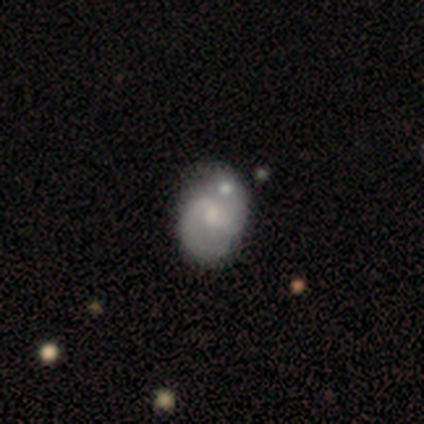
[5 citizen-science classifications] Smooth or featured?
  - featured or disk: 60% *
  - smooth: 40%
  - star or artifact: 0%
Edge-on disk?
  - no: 100% *
  - yes: 0%
Bar?
  - weak: 67% *
  - no: 33%
  - strong: 0%
Spiral arms?
  - yes: 100% *
  - no: 0%
Spiral winding?
  - tight: 33% * (tied)
  - medium: 33% * (tied)
  - loose: 33% * (tied)
Spiral arm count?
  - 2: 67% *
  - can't tell: 33%
  - 1: 0%
  - 3: 0%
  - 4: 0%
  - more than 4: 0%
Bulge size?
  - moderate: 33% * (tied)
  - small: 33% * (tied)
  - none: 33% * (tied)
  - dominant: 0%
  - large: 0%
Merging?
  - minor disturbance: 40% * (tied)
  - merger: 40% * (tied)
  - none: 20%
  - major disturbance: 0%